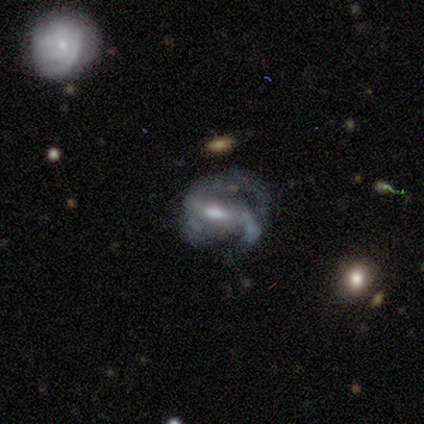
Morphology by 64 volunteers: This is clearly a featured or disk galaxy (89%). It is clearly not viewed edge-on (95%). Bar: possibly strong (46%). Spiral arm pattern: clearly yes (87%). Spiral arm count: likely 2 (70%). Spiral winding: marginally medium (43%). Central bulge: possibly moderate (59%). Merging: marginally major disturbance (42%).